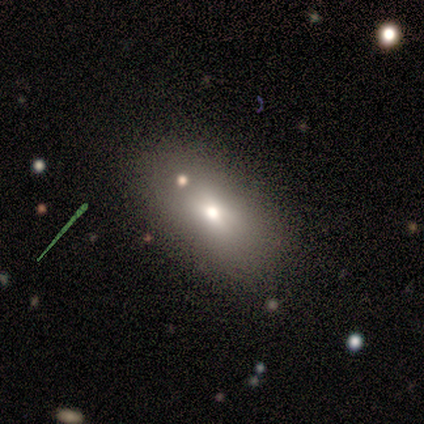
Smooth or featured? smooth (69%)
How rounded? in between (93%)
Merging? none (77%)